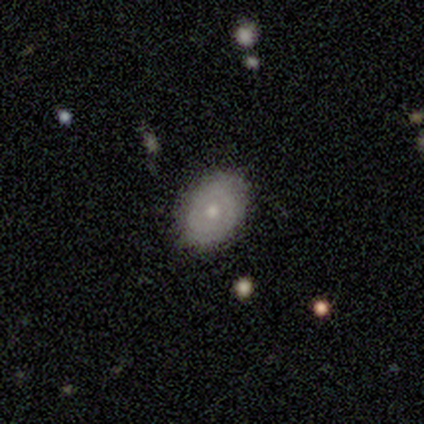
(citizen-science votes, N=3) Volunteers were most divided on "spiral arms" (2-way tie): yes: 50%, no: 50%; "bulge size" (2-way tie): moderate: 50%, small: 50%, dominant: 0%, large: 0%, none: 0%. More confident: edge-on disk — no (100%); bar — no (100%); spiral winding — loose (100%); spiral arm count — can't tell (100%); merging — none (100%); smooth or featured — featured or disk (67%).